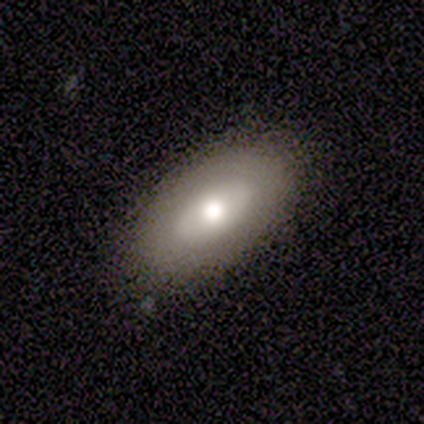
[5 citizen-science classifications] A smooth galaxy with no disk features (80%) that is in between round and cigar-shaped (75%).

Vote fractions:
- Smooth or featured? smooth: 80% / featured or disk: 20% / star or artifact: 0%
- How rounded? in between: 75% / round: 25% / cigar-shaped: 0%
- Merging? none: 100% / minor disturbance: 0% / major disturbance: 0% / merger: 0%